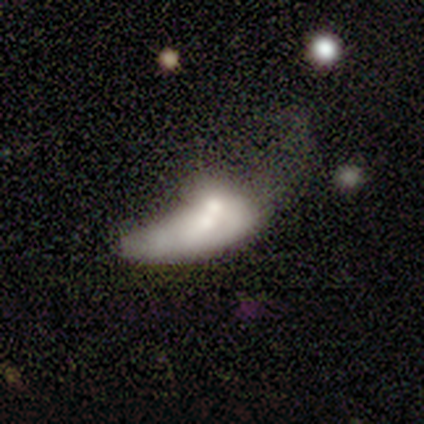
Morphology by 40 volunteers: Smooth or featured?
  - smooth: 48% * (tied)
  - featured or disk: 48% * (tied)
  - star or artifact: 5%
How rounded?
  - in between: 74% *
  - cigar-shaped: 21%
  - round: 5%
Merging?
  - merger: 58% *
  - major disturbance: 37%
  - minor disturbance: 5%
  - none: 0%